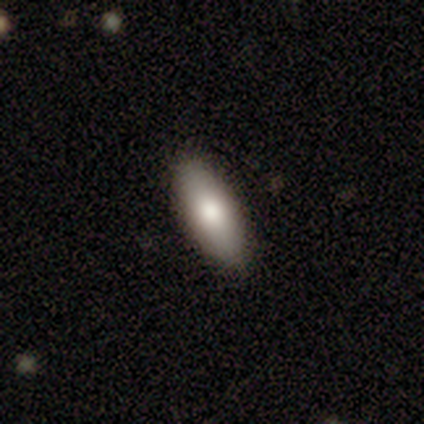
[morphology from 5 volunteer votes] This is clearly a smooth galaxy (100%). How rounded: clearly in between (100%). Merging: clearly none (100%).